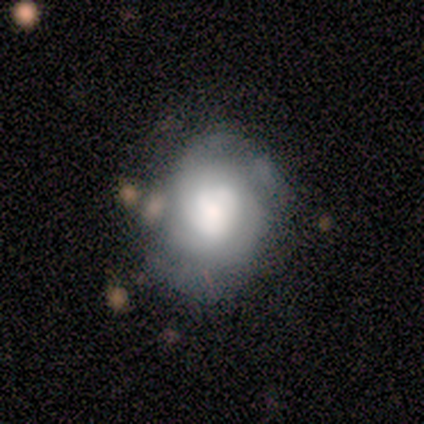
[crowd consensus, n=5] Volunteers were most divided on "how rounded" (2-way tie): round: 50%, in between: 50%, cigar-shaped: 0%. More confident: smooth or featured — smooth (80%); merging — none (80%).